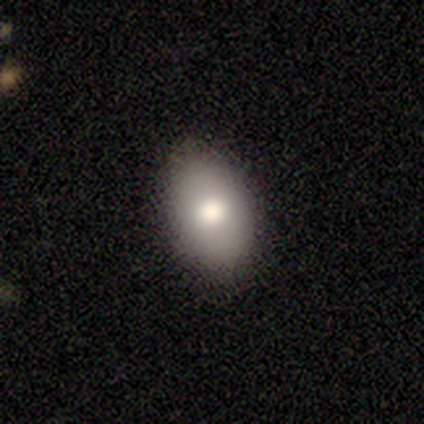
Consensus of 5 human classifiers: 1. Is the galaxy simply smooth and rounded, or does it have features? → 100% smooth, 0% featured or disk, 0% star or artifact.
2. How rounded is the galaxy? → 100% in between, 0% round, 0% cigar-shaped.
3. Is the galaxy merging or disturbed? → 100% none, 0% minor disturbance, 0% major disturbance, 0% merger.